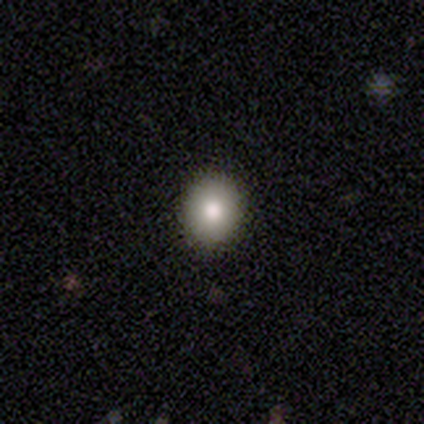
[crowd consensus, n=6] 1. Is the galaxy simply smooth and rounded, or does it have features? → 67% smooth, 17% featured or disk, 17% star or artifact.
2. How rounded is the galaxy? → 50% round (tied), 50% in between (tied), 0% cigar-shaped.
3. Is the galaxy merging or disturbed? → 100% none, 0% minor disturbance, 0% major disturbance, 0% merger.